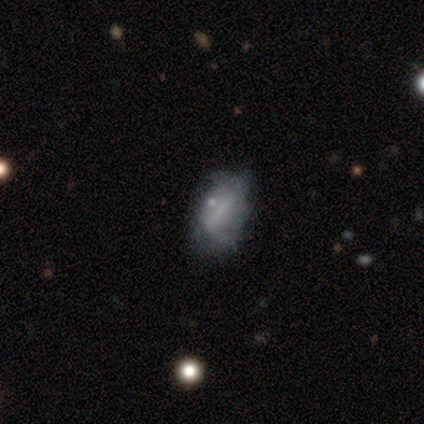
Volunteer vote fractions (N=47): featured or disk 53%, smooth 34%, star or artifact 13%. Down the decision tree: edge-on disk — no (100%); bar — weak (48%); spiral arms — no (56%); bulge size — none (48%); merging — none (54%).